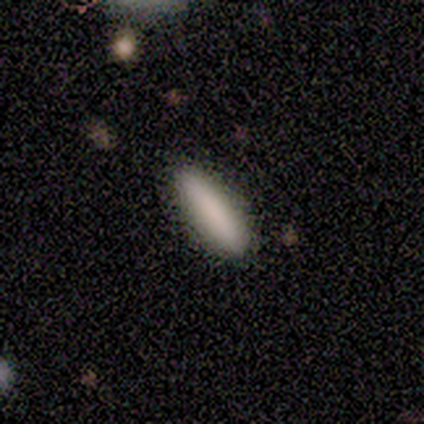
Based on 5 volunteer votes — Volunteers were most divided on "smooth or featured": smooth: 80%, featured or disk: 20%, star or artifact: 0%. More confident: how rounded — cigar-shaped (100%); merging — none (80%).